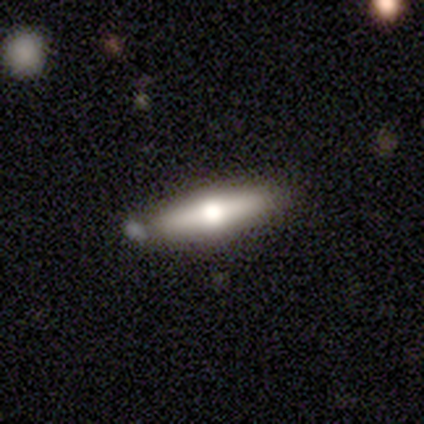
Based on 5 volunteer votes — Smooth or featured? featured or disk (80%)
Edge-on disk? yes (100%)
Edge-on bulge? rounded (100%)
Merging? none (60%)